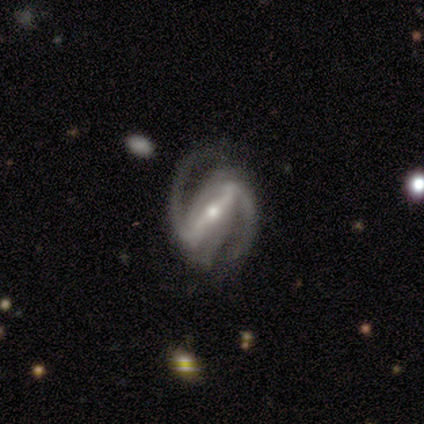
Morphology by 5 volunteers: Overall: featured or disk (100%). Edge-on disk: no (100%). Bar: strong (80%). Spiral arms: yes (100%). Spiral arm count: 2 (100%). Spiral winding: tight (40%, tied with medium). Bulge size: small (100%). Merging: none (100%).